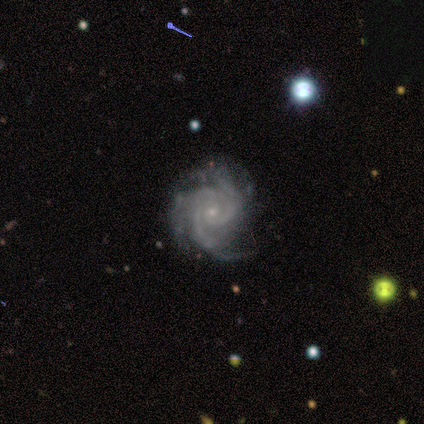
A featured or disk galaxy (100%) with no bar (100%), 3 (100%) tight (60%) spiral arms (100%) and a small central bulge (100%).

Vote fractions:
- Smooth or featured? featured or disk: 100% / smooth: 0% / star or artifact: 0%
- Edge-on disk? no: 100% / yes: 0%
- Bar? no: 100% / strong: 0% / weak: 0%
- Spiral arms? yes: 100% / no: 0%
- Spiral winding? tight: 60% / medium: 40% / loose: 0%
- Spiral arm count? 3: 100% / 1: 0% / 2: 0% / 4: 0% / more than 4: 0% / can't tell: 0%
- Bulge size? small: 100% / dominant: 0% / large: 0% / moderate: 0% / none: 0%
- Merging? none: 80% / major disturbance: 20% / minor disturbance: 0% / merger: 0%